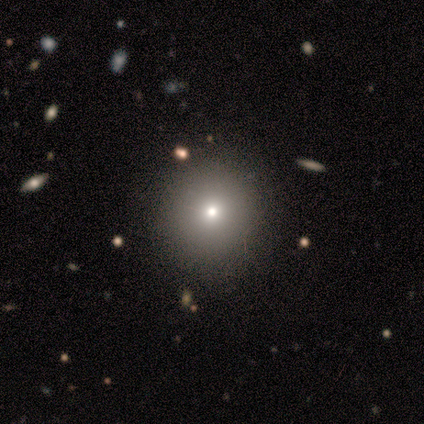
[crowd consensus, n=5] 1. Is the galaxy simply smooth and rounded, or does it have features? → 40% smooth (tied), 40% featured or disk (tied), 20% star or artifact.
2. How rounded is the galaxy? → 100% round, 0% in between, 0% cigar-shaped.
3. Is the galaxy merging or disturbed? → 100% none, 0% minor disturbance, 0% major disturbance, 0% merger.